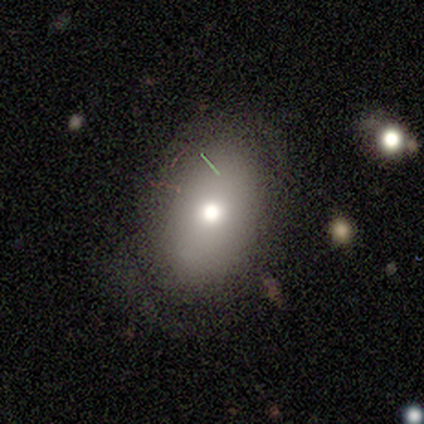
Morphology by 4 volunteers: This appears to be a smooth galaxy with no disk features (100%) that is in between round and cigar-shaped (75%). Merging: none (50%).